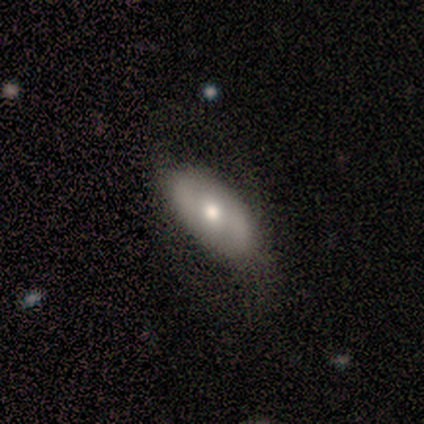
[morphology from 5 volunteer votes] smooth_or_featured: smooth (p=0.60) [alt: featured or disk p=0.40]
how_rounded: in between (p=1.00)
merging: minor disturbance (p=0.60) [alt: none p=0.20]